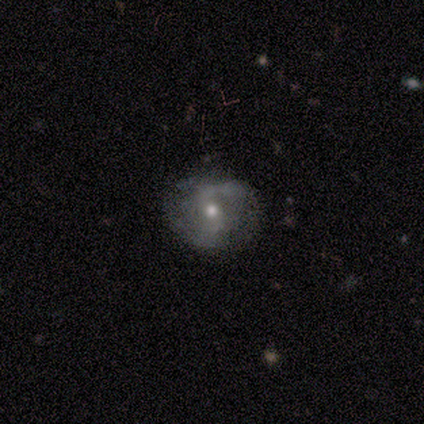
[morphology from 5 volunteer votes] featured or disk 60%, smooth 40%, star or artifact 0%. Down the decision tree: edge-on disk — no (100%); bar — weak (67%); spiral arms — yes (100%); spiral arm count — 2 (100%); spiral winding — medium (67%); bulge size — moderate (100%); merging — none (60%).